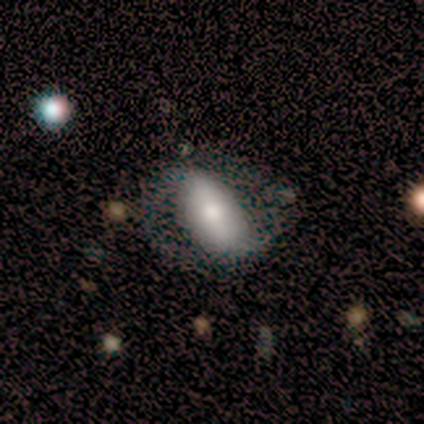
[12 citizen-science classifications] This appears to be a smooth galaxy with no disk features (50%, tied with featured or disk) that is in between round and cigar-shaped (100%). Merging: none (83%).